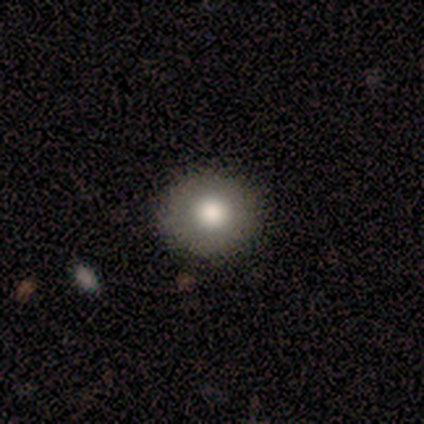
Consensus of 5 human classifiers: smooth 60%, featured or disk 40%, star or artifact 0%. Down the decision tree: how rounded — round (100%); merging — none (100%).